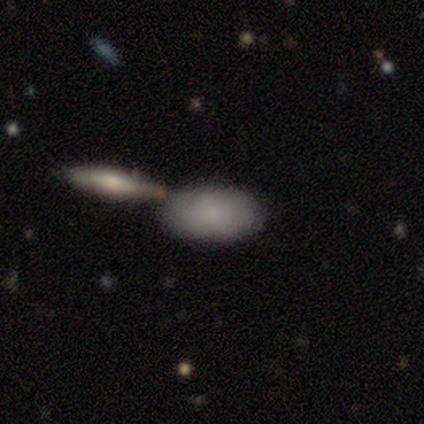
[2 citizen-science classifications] smooth-or-featured: smooth: 100% | featured or disk: 0% | star or artifact: 0%
  how-rounded: in between: 100% | round: 0% | cigar-shaped: 0%
  merging: none: 100% | minor disturbance: 0% | major disturbance: 0% | merger: 0%